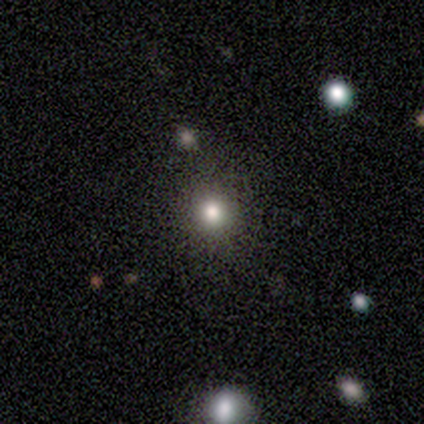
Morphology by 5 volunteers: smooth-or-featured: star or artifact: 60% | smooth: 40% | featured or disk: 0%